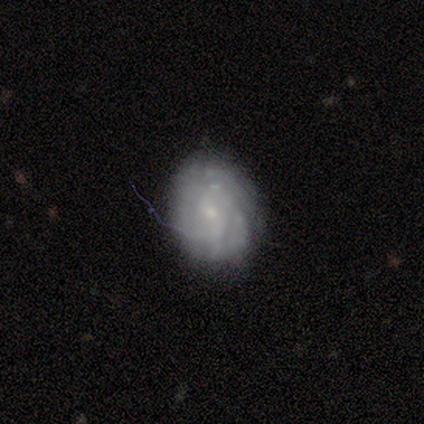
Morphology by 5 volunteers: smooth-or-featured: featured or disk: 60% | smooth: 40% | star or artifact: 0%
  disk-edge-on: no: 100% | yes: 0%
    bar: weak: 67% | no: 33% | strong: 0%
    has-spiral-arms: no: 67% | yes: 33%
    bulge-size: small: 100% | dominant: 0% | large: 0% | moderate: 0% | none: 0%
  merging: none: 60% | minor disturbance: 40% | major disturbance: 0% | merger: 0%